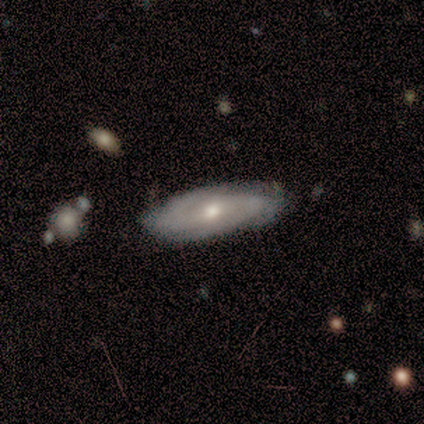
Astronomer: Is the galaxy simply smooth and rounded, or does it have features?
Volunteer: featured or disk — 87%.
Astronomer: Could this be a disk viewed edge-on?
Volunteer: no — 79%.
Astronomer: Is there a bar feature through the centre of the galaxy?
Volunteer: weak — 48%, tied with no at 48%.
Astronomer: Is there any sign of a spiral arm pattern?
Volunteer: yes — 93%.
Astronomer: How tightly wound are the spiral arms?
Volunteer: medium — 52% (runner-up: tight, 36%).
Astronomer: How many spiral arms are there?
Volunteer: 2 — 60%.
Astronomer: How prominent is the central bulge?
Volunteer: moderate — 74%.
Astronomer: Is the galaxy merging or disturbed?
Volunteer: none — 58%.